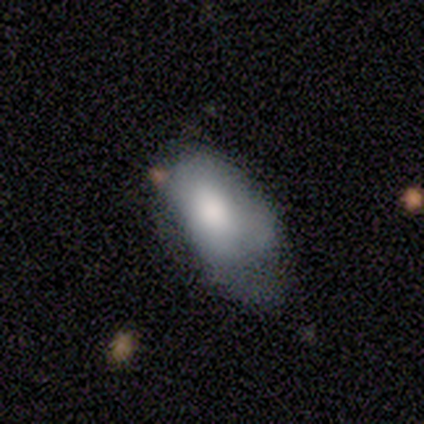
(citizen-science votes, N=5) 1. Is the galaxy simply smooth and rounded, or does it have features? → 60% smooth, 20% featured or disk, 20% star or artifact.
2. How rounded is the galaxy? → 100% in between, 0% round, 0% cigar-shaped.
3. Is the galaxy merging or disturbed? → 75% minor disturbance, 25% none, 0% major disturbance, 0% merger.